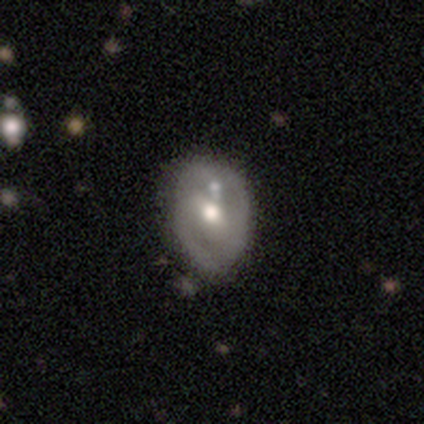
featured or disk 73%, smooth 27%, star or artifact 0%. Down the decision tree: edge-on disk — no (93%); bar — weak (56%); spiral arms — yes (56%); spiral arm count — 2 (93%); spiral winding — tight (50%); bulge size — moderate (80%); merging — none (46%).